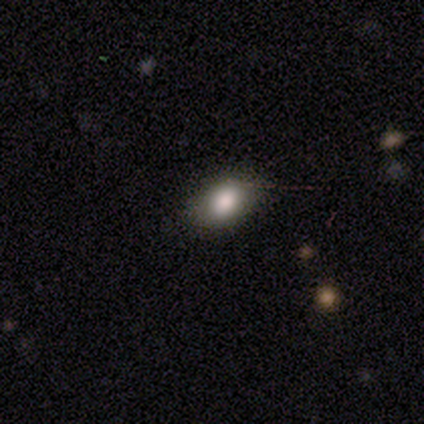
smooth_or_featured: smooth (p=0.80) [alt: featured or disk p=0.20]
how_rounded: round (p=0.50) [tied with: in between p=0.50]
merging: none (p=0.60) [alt: minor disturbance p=0.40]